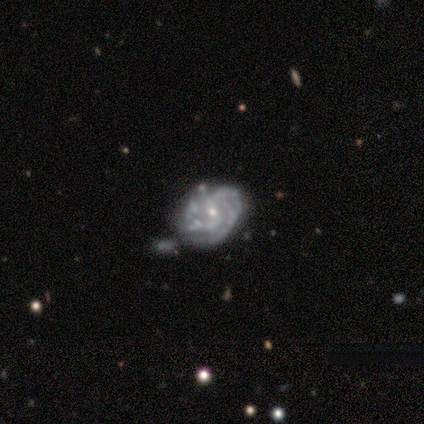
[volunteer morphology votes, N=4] This is likely a featured or disk galaxy (75%). It is clearly not viewed edge-on (100%). Bar: likely no (67%). Spiral arm pattern: clearly yes (100%). Spiral arm count: marginally 3 (33%, tied with 4 and more than 4). Spiral winding: marginally tight (33%, tied with medium and loose). Central bulge: clearly small (100%). Merging: likely none (67%).